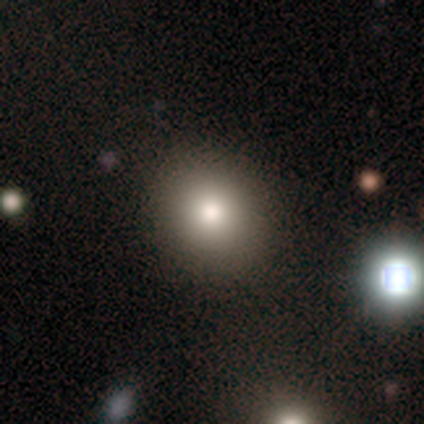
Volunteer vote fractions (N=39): Smooth or featured: smooth — 69% (featured or disk — 18%)
How rounded: round — 85% (in between — 15%)
Merging: none — 91% (minor disturbance — 6%)